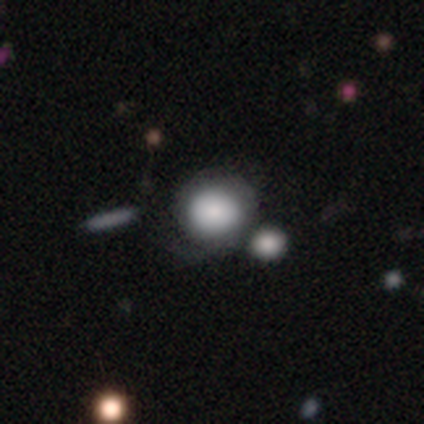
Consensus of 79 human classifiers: smooth_or_featured: smooth (p=0.78) [alt: featured or disk p=0.22]
how_rounded: round (p=0.92) [alt: in between p=0.08]
merging: merger (p=0.30) [alt: none p=0.27]